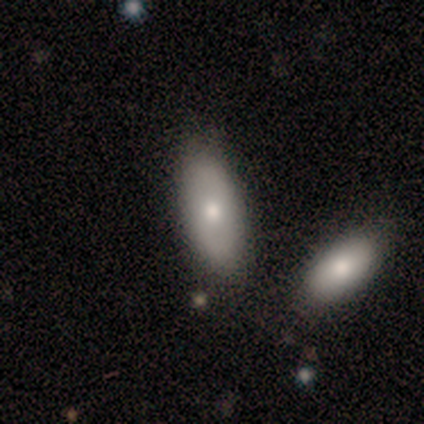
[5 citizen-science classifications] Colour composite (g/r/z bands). It shows a smooth galaxy with no disk features (100%) that is in between round and cigar-shaped (100%). Merging: none (80%).